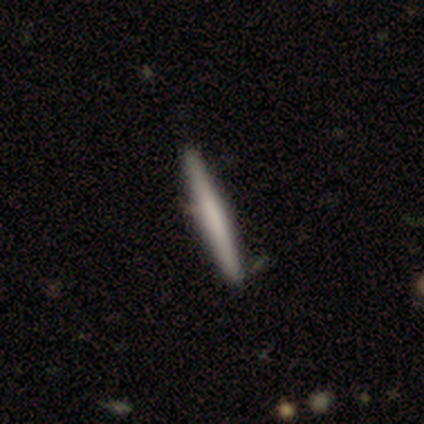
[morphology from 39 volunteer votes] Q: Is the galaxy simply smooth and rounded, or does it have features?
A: smooth — 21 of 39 (54%).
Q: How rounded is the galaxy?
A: cigar-shaped — 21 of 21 (100%).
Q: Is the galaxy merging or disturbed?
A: none — 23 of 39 (59%).